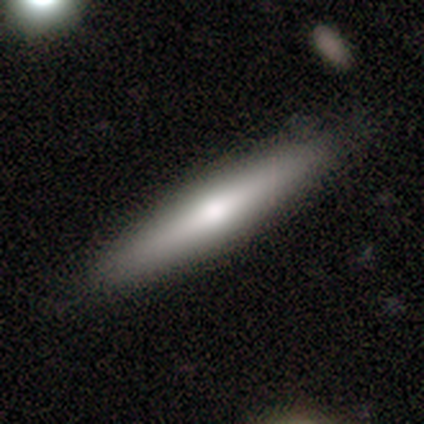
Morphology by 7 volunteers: smooth 57%, featured or disk 43%, star or artifact 0%. Down the decision tree: how rounded — cigar-shaped (100%); merging — none (100%).